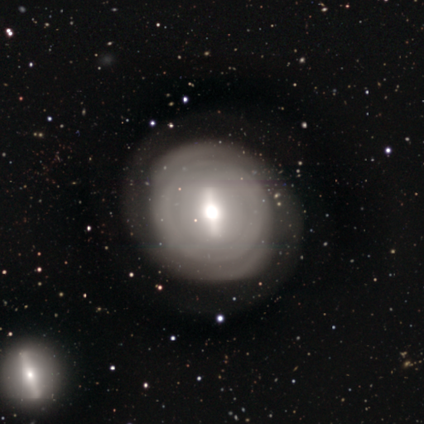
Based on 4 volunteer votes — smooth-or-featured: featured or disk: 100% | smooth: 0% | star or artifact: 0%
  disk-edge-on: yes: 75% | no: 25%
    edge-on-bulge: rounded: 100% | boxy: 0% | none: 0%
  merging: none: 100% | minor disturbance: 0% | major disturbance: 0% | merger: 0%